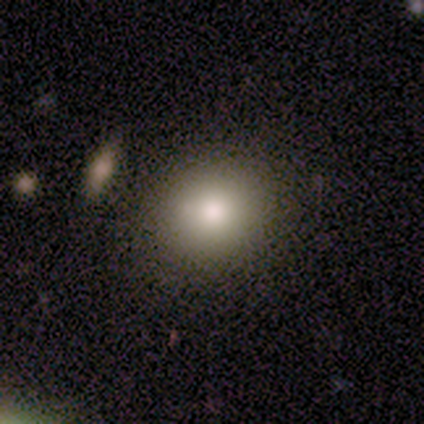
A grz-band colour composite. It shows a smooth galaxy with no disk features (100%) that is round (60%). Merging: none (80%).